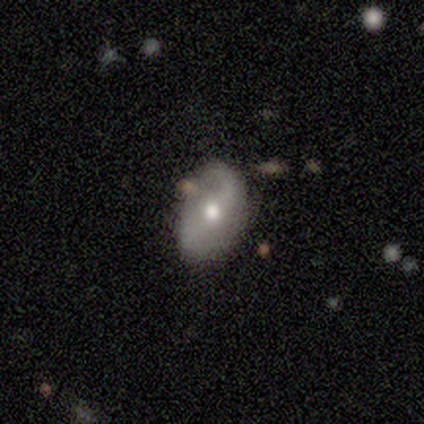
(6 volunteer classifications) Morphology: type=featured or disk (83%); edge-on=no (100%); bar=weak (60%); spiral arms=yes (80%); winding=loose (75%); arm count=2 (100%); bulge=moderate (60%); merging=none (80%).